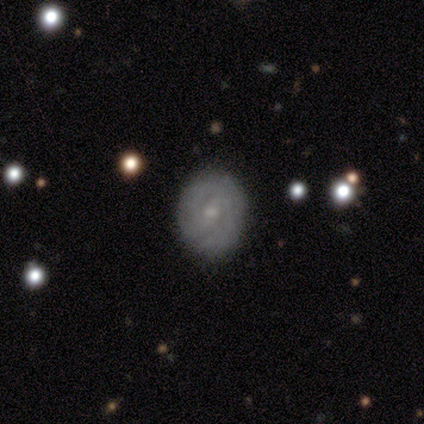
Volunteers were most divided on "smooth or featured": featured or disk: 49%, smooth: 47%, star or artifact: 4%. Remaining: edge-on disk — no (100%); merging — none (87%); spiral arms — yes (79%); spiral winding — tight (63%); bulge size — small (58%); bar — no (54%); spiral arm count — 2 (47%).